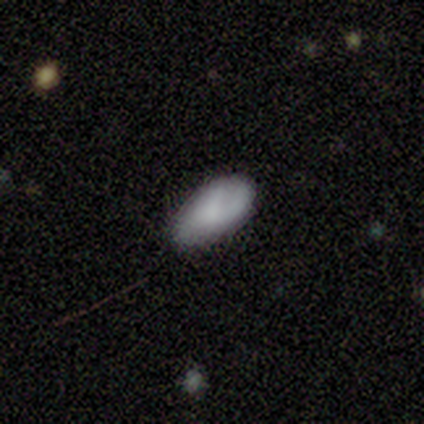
Overall: smooth (67%; featured or disk 33%). How rounded: in between (100%). Merging: minor disturbance (67%; none 33%).